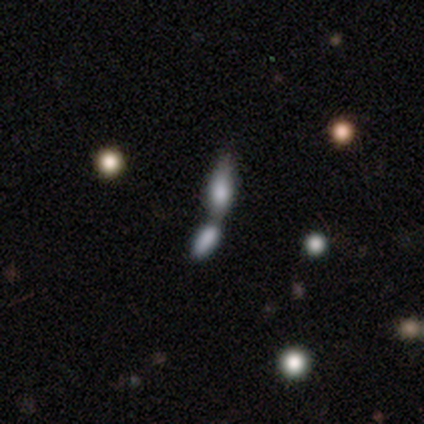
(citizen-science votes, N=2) Smooth or featured? 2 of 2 (100%) said smooth. How rounded? 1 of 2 (50%, tied with in between) said round. Merging? 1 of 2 (50%, tied with merger) said none.